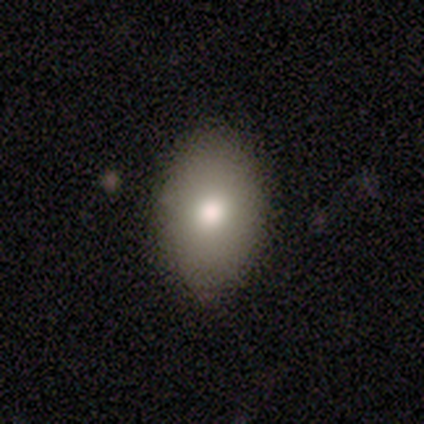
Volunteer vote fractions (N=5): This appears to be a smooth galaxy with no disk features (80%) that is in between round and cigar-shaped (50%). Merging: none (60%).